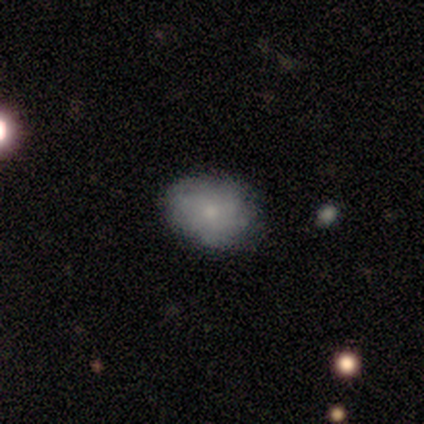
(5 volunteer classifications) Smooth or featured?
  - featured or disk: 60% *
  - smooth: 20%
  - star or artifact: 20%
Edge-on disk?
  - no: 100% *
  - yes: 0%
Bar?
  - no: 100% *
  - strong: 0%
  - weak: 0%
Spiral arms?
  - yes: 67% *
  - no: 33%
Spiral winding?
  - medium: 100% *
  - tight: 0%
  - loose: 0%
Spiral arm count?
  - 1: 50% * (tied)
  - can't tell: 50% * (tied)
  - 2: 0%
  - 3: 0%
  - 4: 0%
  - more than 4: 0%
Bulge size?
  - moderate: 33% * (tied)
  - small: 33% * (tied)
  - none: 33% * (tied)
  - dominant: 0%
  - large: 0%
Merging?
  - none: 75% *
  - merger: 25%
  - minor disturbance: 0%
  - major disturbance: 0%